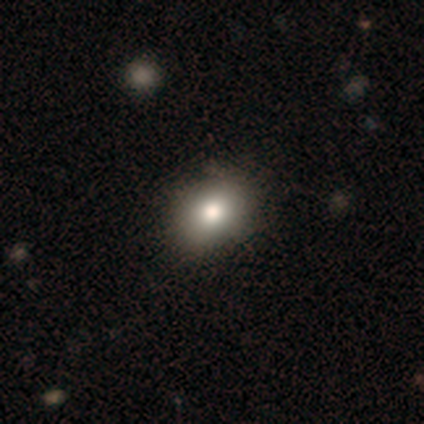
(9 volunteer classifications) Smooth or featured? 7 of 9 (78%) said smooth. How rounded? 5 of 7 (71%) said in between. Merging? 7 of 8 (88%) said none.